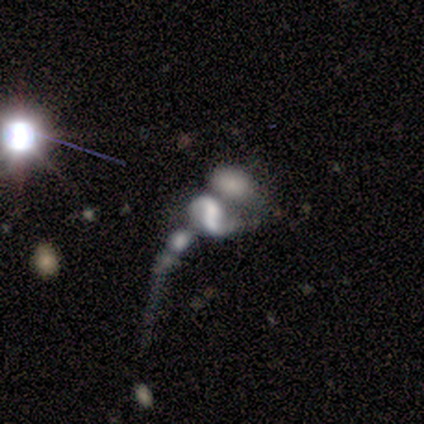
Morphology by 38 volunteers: A featured or disk galaxy (58%) with no bar (62%), 2 (88%) loose (75%) spiral arms (76%) and no central bulge (52%). Merging: merger (62%).